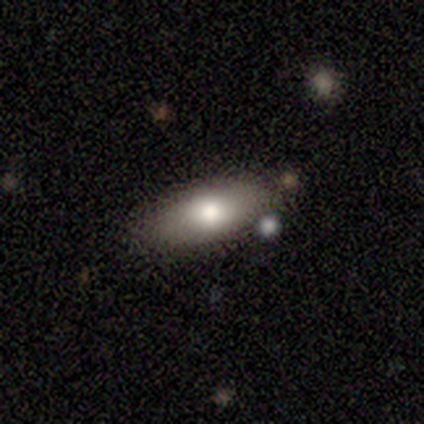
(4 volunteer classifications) Consensus on every question: smooth or featured — smooth (100%); how rounded — in between (100%); merging — none (100%).